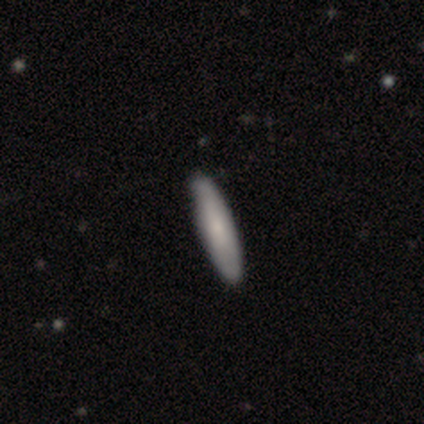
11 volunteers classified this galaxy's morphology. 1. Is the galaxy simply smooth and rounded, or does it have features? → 55% smooth, 36% featured or disk, 9% star or artifact.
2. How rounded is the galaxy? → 100% cigar-shaped, 0% round, 0% in between.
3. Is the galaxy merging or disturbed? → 90% none, 10% minor disturbance, 0% major disturbance, 0% merger.